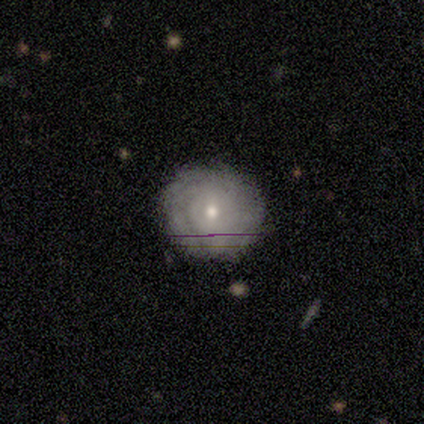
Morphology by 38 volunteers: This is possibly a featured or disk galaxy (58%). It is clearly not viewed edge-on (91%). Bar: clearly no (80%). Spiral arm pattern: likely yes (75%). Spiral arm count: likely can't tell (67%). Spiral winding: clearly tight (80%). Central bulge: likely small (60%). Merging: clearly none (83%).